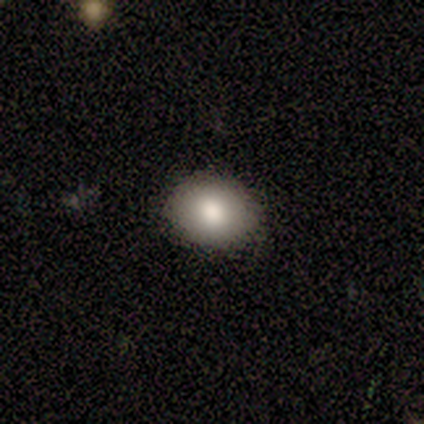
Smooth or featured: smooth — 60% (featured or disk — 20%)
How rounded: in between — 67% (round — 33%)
Merging: none — 100%